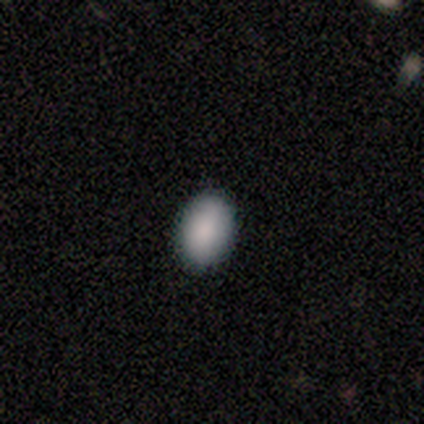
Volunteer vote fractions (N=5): smooth-or-featured: smooth: 100% | featured or disk: 0% | star or artifact: 0%
  how-rounded: in between: 80% | round: 20% | cigar-shaped: 0%
  merging: none: 100% | minor disturbance: 0% | major disturbance: 0% | merger: 0%